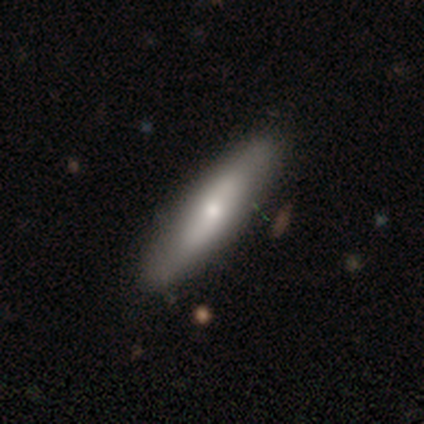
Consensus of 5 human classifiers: Overall: smooth (60%; featured or disk 40%). How rounded: in between (67%; cigar-shaped 33%). Merging: none (60%; minor disturbance 40%).